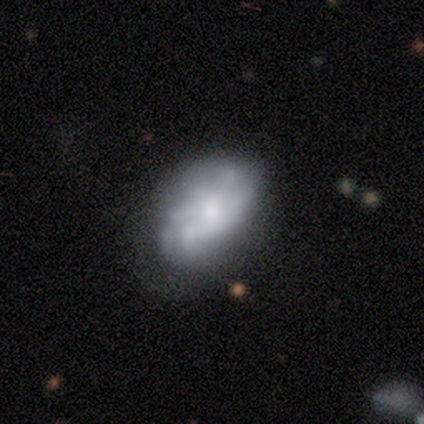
smooth_or_featured: featured or disk (p=0.60) [alt: smooth p=0.40]
disk_edge_on: no (p=1.00)
bar: no (p=1.00)
has_spiral_arms: no (p=1.00)
bulge_size: moderate (p=0.33) [tied with: small p=0.33, none p=0.33]
merging: none (p=0.80) [alt: major disturbance p=0.20]